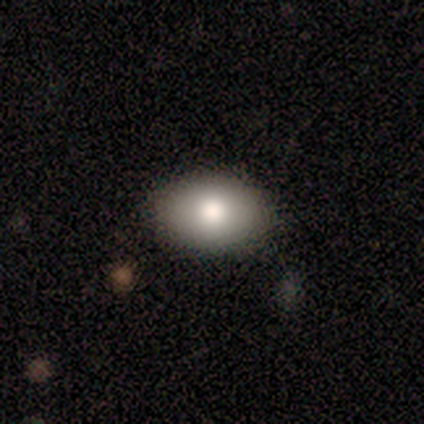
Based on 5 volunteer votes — Consensus on every question: smooth or featured — smooth (100%); how rounded — in between (100%); merging — none (100%).